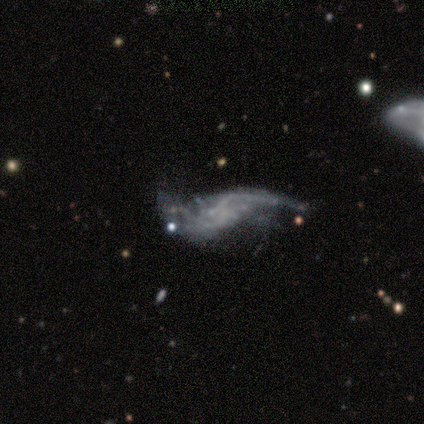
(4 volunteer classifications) This is likely a featured or disk galaxy (75%). It is clearly not viewed edge-on (100%). Bar: clearly no (100%). Spiral arm pattern: clearly yes (100%). Spiral arm count: likely 2 (67%). Spiral winding: likely loose (67%). Central bulge: clearly none (100%). Merging: likely major disturbance (75%).